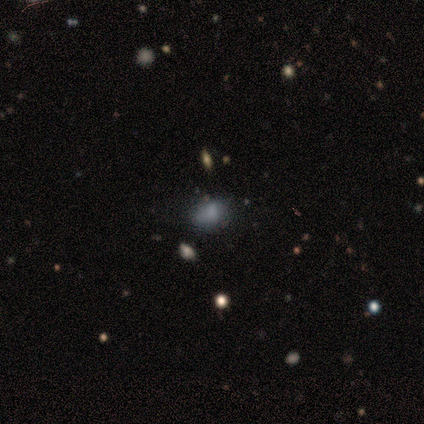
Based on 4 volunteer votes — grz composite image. It shows a smooth galaxy with no disk features (75%) that is in between round and cigar-shaped (100%). Merging: none (67%).